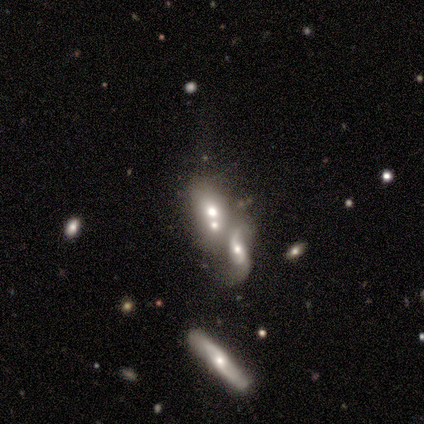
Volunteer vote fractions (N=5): A smooth galaxy with no disk features (40%, tied with featured or disk) that is in between round and cigar-shaped (50%, tied with cigar-shaped).

Vote fractions:
- Smooth or featured? smooth: 40% (tied) / featured or disk: 40% (tied) / star or artifact: 20%
- How rounded? in between: 50% (tied) / cigar-shaped: 50% (tied) / round: 0%
- Merging? merger: 75% / major disturbance: 25% / none: 0% / minor disturbance: 0%